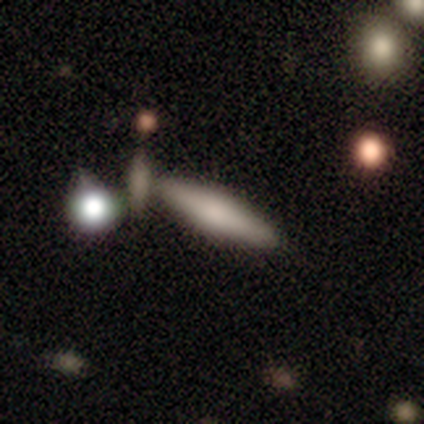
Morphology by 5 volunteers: smooth_or_featured: smooth (p=0.60) [alt: featured or disk p=0.40]
how_rounded: cigar-shaped (p=1.00)
merging: none (p=0.80) [alt: merger p=0.20]